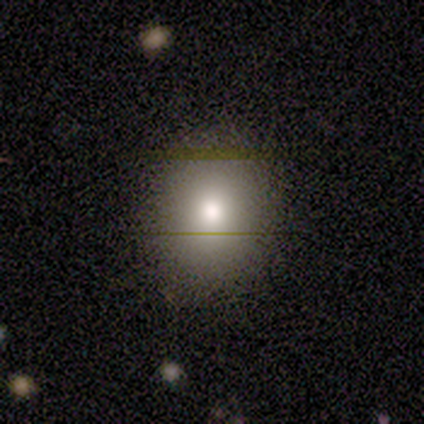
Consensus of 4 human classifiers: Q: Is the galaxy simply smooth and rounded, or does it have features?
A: smooth — 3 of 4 (75%).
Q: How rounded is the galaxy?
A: in between — 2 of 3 (67%).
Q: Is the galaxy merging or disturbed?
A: none — 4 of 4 (100%).